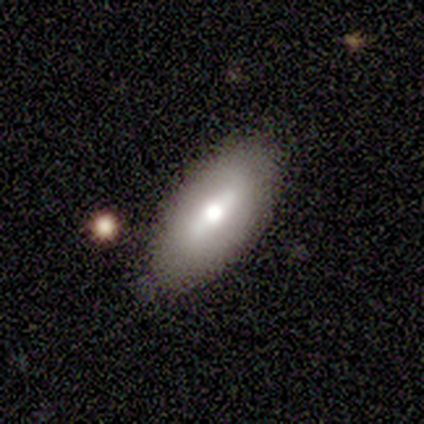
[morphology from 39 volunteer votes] A smooth galaxy with no disk features (51%) that is in between round and cigar-shaped (90%). Merging: none (92%).